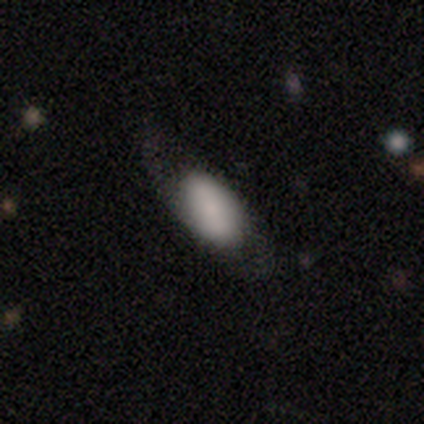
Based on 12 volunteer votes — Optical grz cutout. It shows a smooth galaxy with no disk features (75%) that is in between round and cigar-shaped (100%). Merging: none (82%).